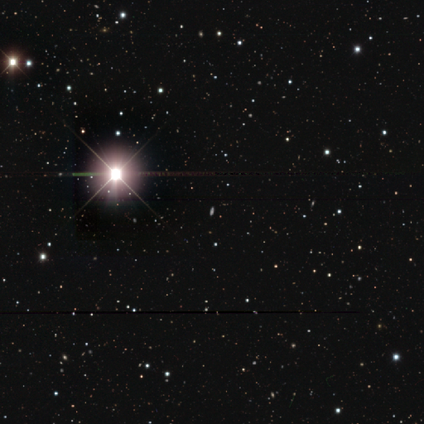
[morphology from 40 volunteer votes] Q: Smooth or featured?
A: star or artifact (85%); runner-up: smooth (10%)